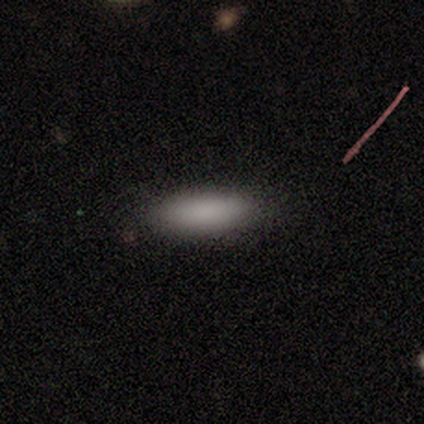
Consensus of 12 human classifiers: Smooth or featured: smooth — 83% (featured or disk — 17%)
How rounded: in between — 60% (cigar-shaped — 40%)
Merging: none — 83% (minor disturbance — 8%)